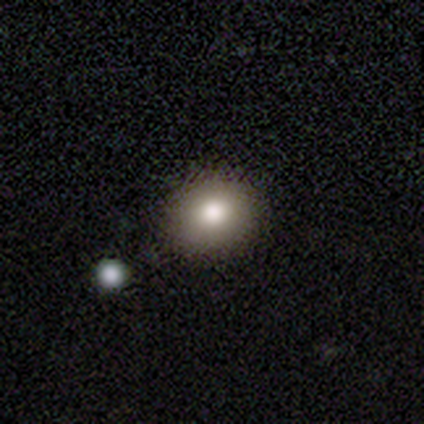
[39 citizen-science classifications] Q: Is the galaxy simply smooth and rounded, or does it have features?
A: smooth — 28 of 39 (72%).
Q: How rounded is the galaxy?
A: round — 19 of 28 (68%).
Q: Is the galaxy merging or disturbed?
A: none — 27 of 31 (87%).